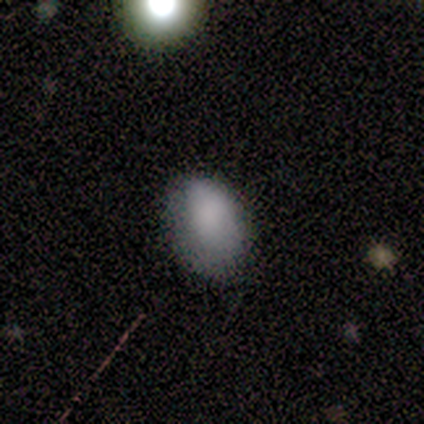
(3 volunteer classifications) smooth-or-featured: smooth: 67% | star or artifact: 33% | featured or disk: 0%
  how-rounded: in between: 100% | round: 0% | cigar-shaped: 0%
  merging: minor disturbance: 100% | none: 0% | major disturbance: 0% | merger: 0%